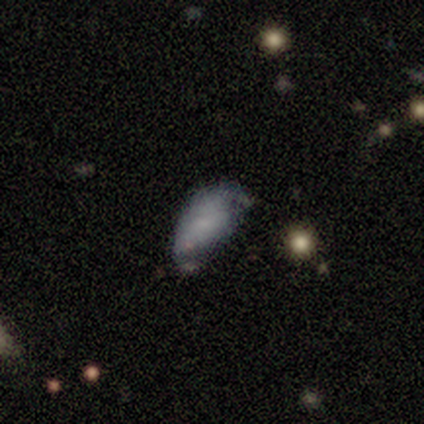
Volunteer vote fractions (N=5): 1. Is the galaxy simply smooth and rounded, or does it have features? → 60% smooth, 40% featured or disk, 0% star or artifact.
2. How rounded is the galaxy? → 100% in between, 0% round, 0% cigar-shaped.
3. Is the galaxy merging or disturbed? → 40% none, 20% minor disturbance, 20% major disturbance, 20% merger.